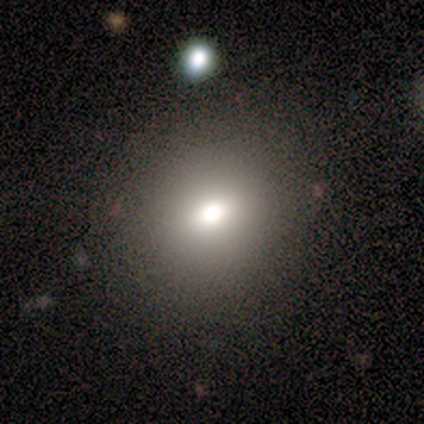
Overall: smooth (57%; star or artifact 29%). How rounded: round (75%). Merging: none (80%).